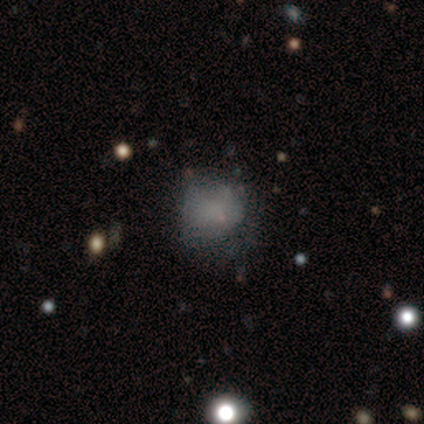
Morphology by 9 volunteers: Smooth or featured: smooth — 56% (featured or disk — 33%)
How rounded: round — 80% (in between — 20%)
Merging: minor disturbance — 62% (none — 38%)